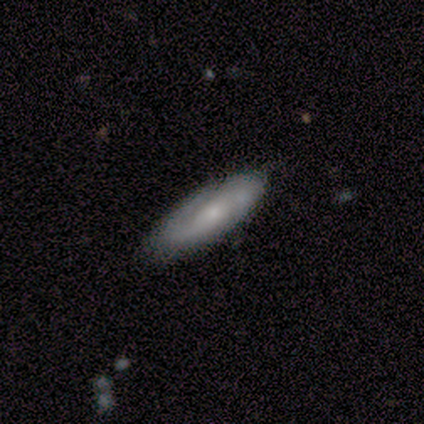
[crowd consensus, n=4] smooth-or-featured: featured or disk: 100% | smooth: 0% | star or artifact: 0%
  disk-edge-on: no: 75% | yes: 25%
    bar: no: 100% | strong: 0% | weak: 0%
    has-spiral-arms: yes: 100% | no: 0%
      spiral-winding: tight: 100% | medium: 0% | loose: 0%
      spiral-arm-count: 2: 100% | 1: 0% | 3: 0% | 4: 0% | more than 4: 0% | can't tell: 0%
    bulge-size: small: 67% | none: 33% | dominant: 0% | large: 0% | moderate: 0%
  merging: none: 100% | minor disturbance: 0% | major disturbance: 0% | merger: 0%